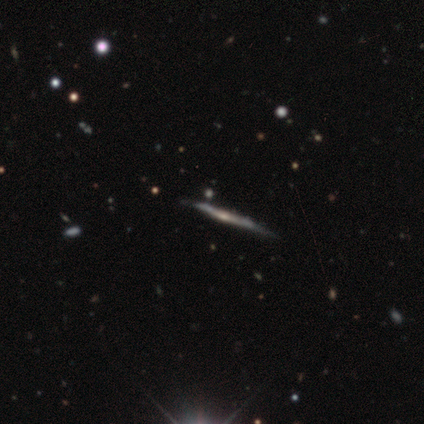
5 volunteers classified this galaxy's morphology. This appears to be a featured or disk galaxy (80%) viewed edge-on (100%) with a rounded central bulge (75%). Merging: none (80%).